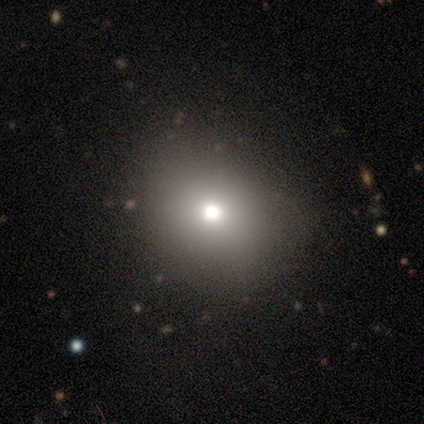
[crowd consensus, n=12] Volunteers were most divided on "smooth or featured": smooth: 75%, star or artifact: 25%, featured or disk: 0%. More confident: how rounded — round (100%); merging — none (89%).